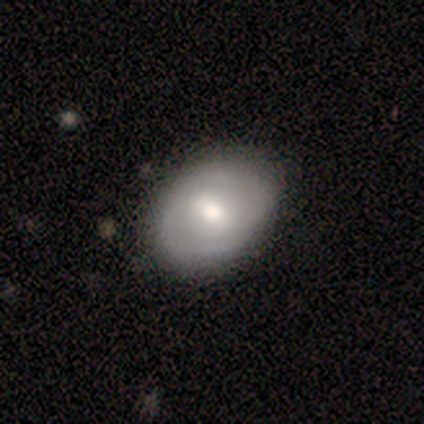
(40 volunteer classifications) Smooth or featured: featured or disk — 55% (smooth — 42%)
Edge-on disk: no — 91% (yes — 9%)
Bar: weak — 55% (strong — 25%)
Spiral arms: yes — 60% (no — 40%)
Spiral winding: tight — 58% (medium — 33%)
Spiral arm count: 2 — 50% (can't tell — 42%)
Bulge size: moderate — 70% (large — 20%)
Merging: none — 64% (minor disturbance — 3%)